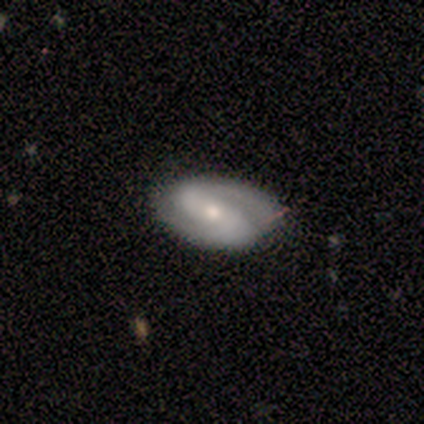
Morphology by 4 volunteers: Smooth or featured?
  - featured or disk: 100% *
  - smooth: 0%
  - star or artifact: 0%
Edge-on disk?
  - no: 100% *
  - yes: 0%
Bar?
  - weak: 50% *
  - strong: 25%
  - no: 25%
Spiral arms?
  - yes: 100% *
  - no: 0%
Spiral winding?
  - medium: 50% *
  - tight: 25%
  - loose: 25%
Spiral arm count?
  - 2: 100% *
  - 1: 0%
  - 3: 0%
  - 4: 0%
  - more than 4: 0%
  - can't tell: 0%
Bulge size?
  - moderate: 75% *
  - small: 25%
  - dominant: 0%
  - large: 0%
  - none: 0%
Merging?
  - none: 100% *
  - minor disturbance: 0%
  - major disturbance: 0%
  - merger: 0%